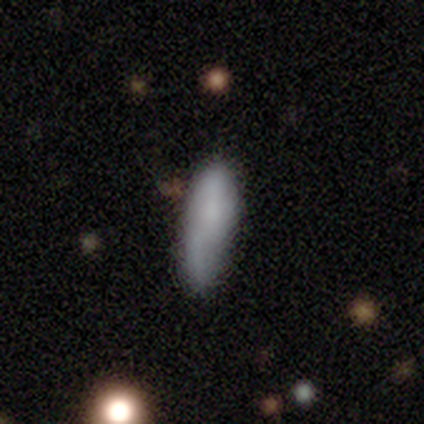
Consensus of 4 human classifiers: A smooth galaxy with no disk features (100%) that is cigar-shaped (75%). Merging: none (100%).